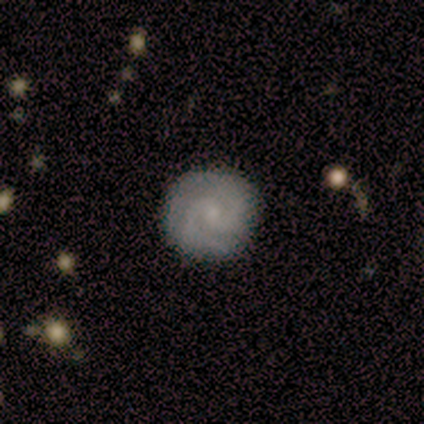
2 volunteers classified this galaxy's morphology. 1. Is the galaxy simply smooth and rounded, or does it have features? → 100% featured or disk, 0% smooth, 0% star or artifact.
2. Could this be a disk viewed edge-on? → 100% no, 0% yes.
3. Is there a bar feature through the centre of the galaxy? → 50% weak (tied), 50% no (tied), 0% strong.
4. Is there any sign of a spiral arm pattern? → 100% yes, 0% no.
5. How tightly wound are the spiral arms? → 50% medium (tied), 50% loose (tied), 0% tight.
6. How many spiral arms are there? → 100% 2, 0% 1, 0% 3, 0% 4, 0% more than 4, 0% can't tell.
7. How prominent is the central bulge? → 50% small (tied), 50% none (tied), 0% dominant, 0% large, 0% moderate.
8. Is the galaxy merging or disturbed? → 100% none, 0% minor disturbance, 0% major disturbance, 0% merger.